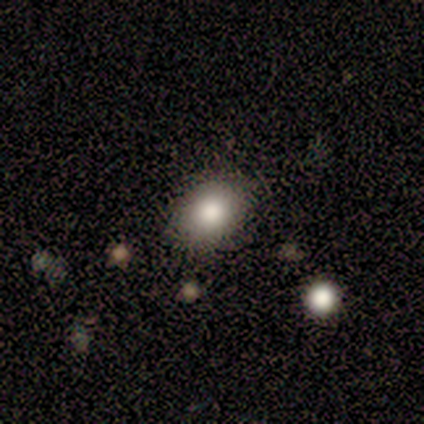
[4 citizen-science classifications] Smooth or featured: smooth — 100%
How rounded: in between — 75% (round — 25%)
Merging: none — 50% (tied with minor disturbance — 50%)